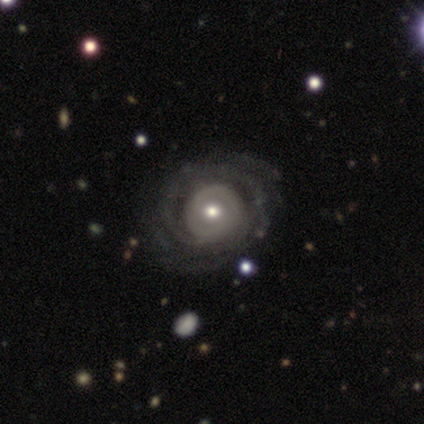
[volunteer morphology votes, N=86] featured or disk 81%, smooth 14%, star or artifact 5%. Down the decision tree: edge-on disk — no (97%); bar — no (76%); spiral arms — yes (88%); spiral arm count — can't tell (42%); spiral winding — tight (70%); bulge size — moderate (57%); merging — none (67%).